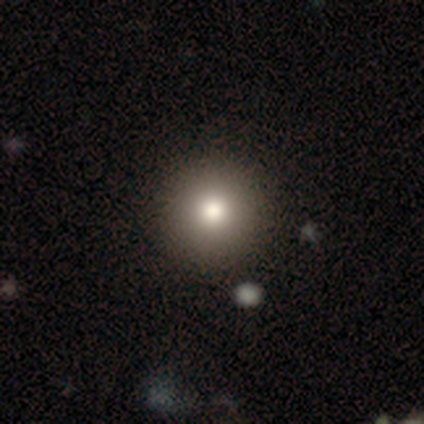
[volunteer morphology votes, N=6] A smooth galaxy with no disk features (83%) that is round (100%). Merging: none (100%).